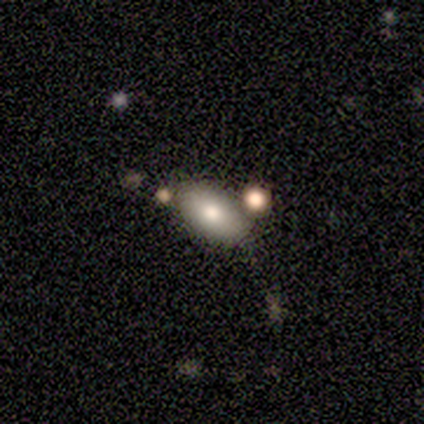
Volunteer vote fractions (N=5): Overall: smooth (100%). How rounded: in between (80%). Merging: none (60%; major disturbance 20%).